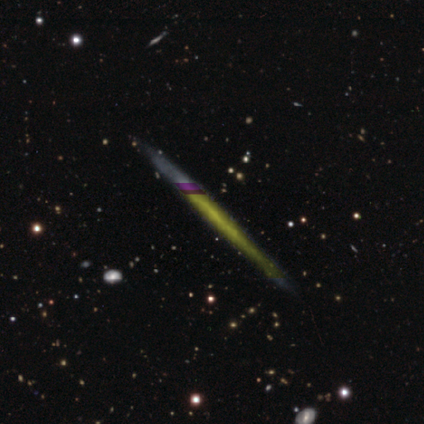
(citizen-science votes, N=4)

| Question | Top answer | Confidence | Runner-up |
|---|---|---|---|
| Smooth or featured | featured or disk | 50% | smooth (25%) |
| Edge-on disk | yes | 100% | — |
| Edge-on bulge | none | 100% | — |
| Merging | none | 100% | — |